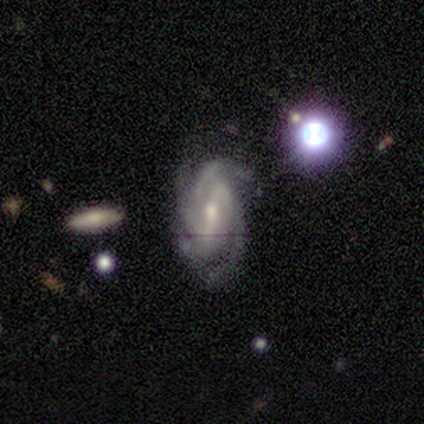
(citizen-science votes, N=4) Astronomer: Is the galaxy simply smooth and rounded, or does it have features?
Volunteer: featured or disk — 100%.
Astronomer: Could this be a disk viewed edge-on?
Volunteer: no — 100%.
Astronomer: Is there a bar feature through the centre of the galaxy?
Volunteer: strong — 75%.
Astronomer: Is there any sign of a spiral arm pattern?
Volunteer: yes — 100%.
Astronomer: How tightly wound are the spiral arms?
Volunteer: tight — 75%.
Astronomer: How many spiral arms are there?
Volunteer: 2 — 25%, tied with 3, 4 and can't tell at 25%.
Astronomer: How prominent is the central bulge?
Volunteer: small — 75%.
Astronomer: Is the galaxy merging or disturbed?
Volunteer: none — 75%.